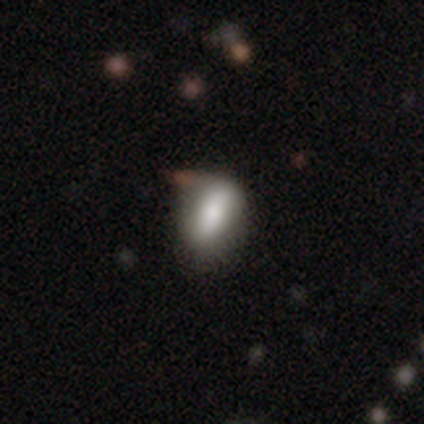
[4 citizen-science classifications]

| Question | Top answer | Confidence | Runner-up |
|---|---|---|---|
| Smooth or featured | smooth | 75% | featured or disk (25%) |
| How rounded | in between | 100% | — |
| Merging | none | 75% | minor disturbance (25%) |